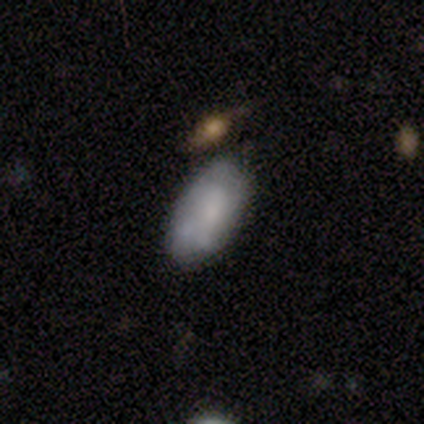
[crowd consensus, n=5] smooth_or_featured: smooth (p=0.40) [tied with: star or artifact p=0.40]
how_rounded: in between (p=1.00)
merging: minor disturbance (p=0.67) [alt: none p=0.33]